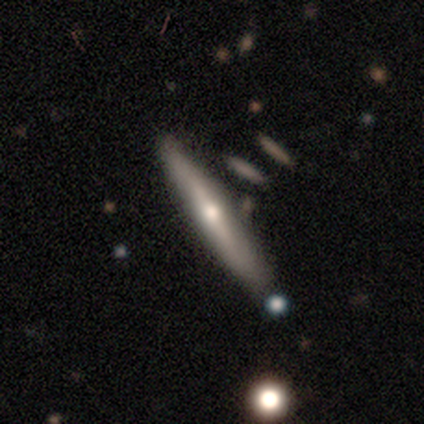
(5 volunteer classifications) Smooth or featured: featured or disk — 80% (smooth — 20%)
Edge-on disk: yes — 100%
Edge-on bulge: rounded — 75% (none — 25%)
Merging: none — 80% (minor disturbance — 20%)